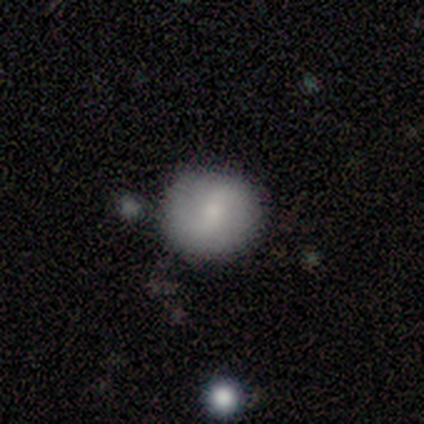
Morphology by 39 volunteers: smooth 49%, featured or disk 41%, star or artifact 10%. Down the decision tree: how rounded — round (89%); merging — none (86%).